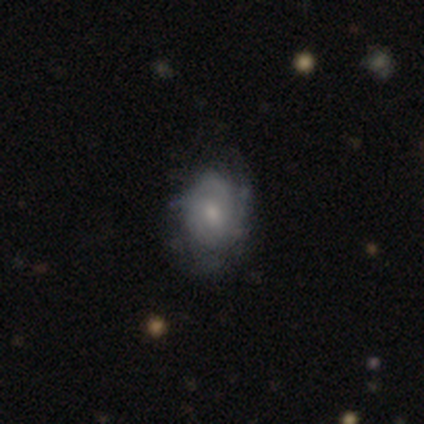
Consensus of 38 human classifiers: Smooth or featured? 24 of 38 (63%) said featured or disk. Edge-on disk? 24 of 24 (100%) said no. Bar? 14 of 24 (58%) said no. Spiral arms? 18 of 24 (75%) said yes. Spiral winding? 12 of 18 (67%) said tight. Spiral arm count? 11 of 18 (61%) said can't tell. Bulge size? 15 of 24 (62%) said small. Merging? 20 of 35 (57%) said none.